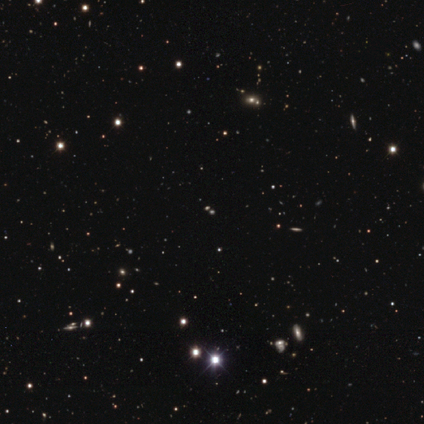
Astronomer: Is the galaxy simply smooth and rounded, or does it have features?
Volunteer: star or artifact — 74%.